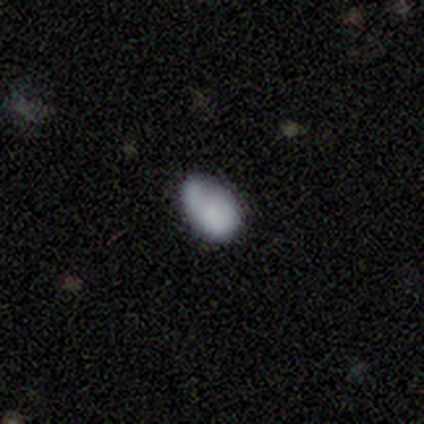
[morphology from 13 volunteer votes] smooth-or-featured: smooth: 85% | featured or disk: 15% | star or artifact: 0%
  how-rounded: in between: 100% | round: 0% | cigar-shaped: 0%
  merging: none: 46% (tied) | minor disturbance: 46% (tied) | merger: 8% | major disturbance: 0%